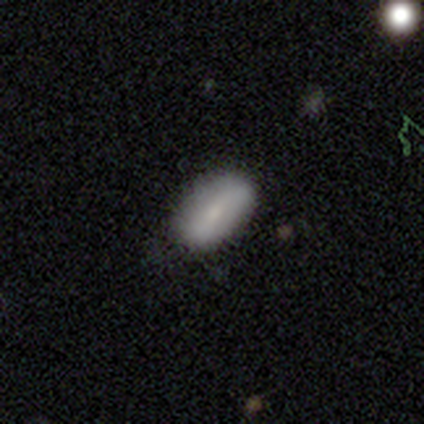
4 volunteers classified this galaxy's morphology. A smooth galaxy with no disk features (75%) that is in between round and cigar-shaped (100%).

Vote fractions:
- Smooth or featured? smooth: 75% / featured or disk: 25% / star or artifact: 0%
- How rounded? in between: 100% / round: 0% / cigar-shaped: 0%
- Merging? none: 75% / major disturbance: 25% / minor disturbance: 0% / merger: 0%